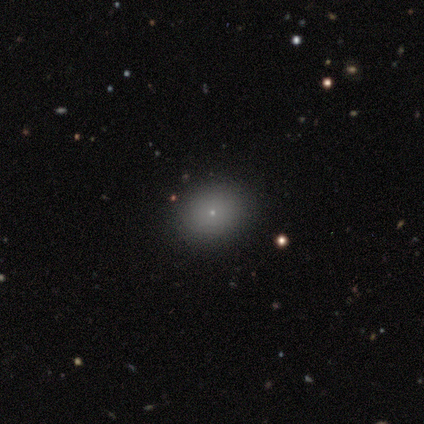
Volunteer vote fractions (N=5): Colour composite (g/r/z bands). It shows a smooth galaxy with no disk features (60%) that is round (67%). Merging: none (100%).